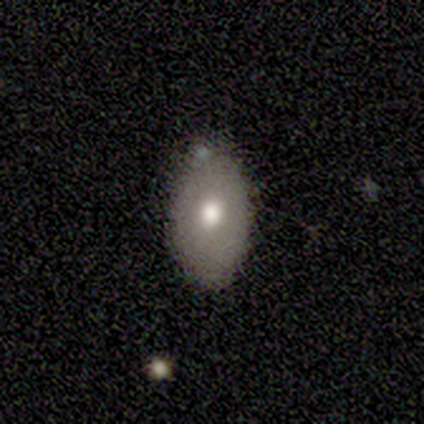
smooth_or_featured: smooth (p=0.80) [alt: featured or disk p=0.20]
how_rounded: in between (p=1.00)
merging: none (p=1.00)